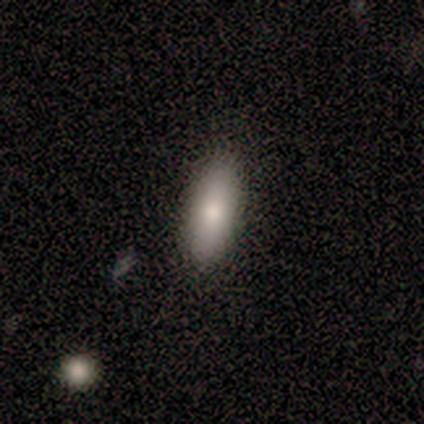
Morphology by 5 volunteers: Q: Smooth or featured?
A: smooth (80%); runner-up: featured or disk (20%)
Q: How rounded?
A: in between (75%); runner-up: cigar-shaped (25%)
Q: Merging?
A: none (80%); runner-up: minor disturbance (20%)